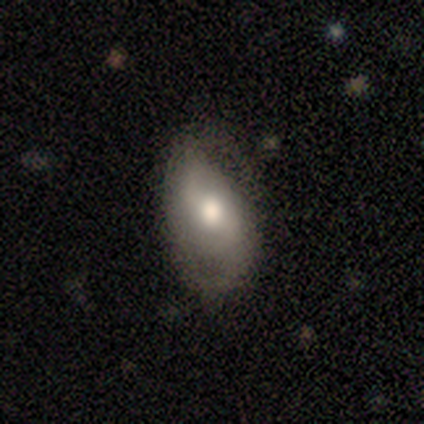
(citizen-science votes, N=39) smooth_or_featured: featured or disk (p=0.49) [alt: smooth p=0.46]
disk_edge_on: no (p=0.79) [alt: yes p=0.21]
bar: no (p=0.53) [alt: weak p=0.47]
has_spiral_arms: yes (p=0.87) [alt: no p=0.13]
spiral_winding: loose (p=0.62) [alt: medium p=0.23]
spiral_arm_count: 2 (p=0.62) [alt: 1 p=0.23]
bulge_size: moderate (p=0.73) [alt: large p=0.13]
merging: none (p=0.46) [alt: minor disturbance p=0.35]